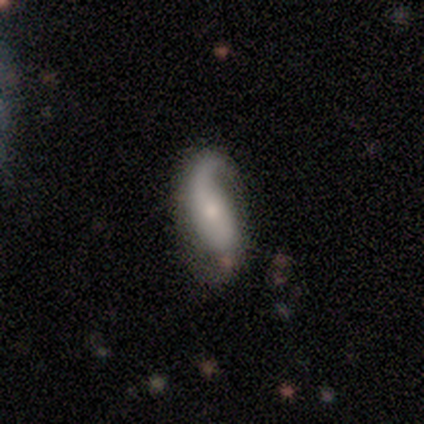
Q: Smooth or featured?
A: featured or disk (76%); runner-up: smooth (18%)
Q: Edge-on disk?
A: no (97%); runner-up: yes (3%)
Q: Bar?
A: no (61%); runner-up: weak (21%)
Q: Spiral arms?
A: yes (86%); runner-up: no (14%)
Q: Spiral winding?
A: loose (62%); runner-up: medium (29%)
Q: Spiral arm count?
A: 2 (50%); runner-up: 1 (46%)
Q: Bulge size?
A: small (64%); runner-up: moderate (25%)
Q: Merging?
A: none (64%); runner-up: minor disturbance (31%)